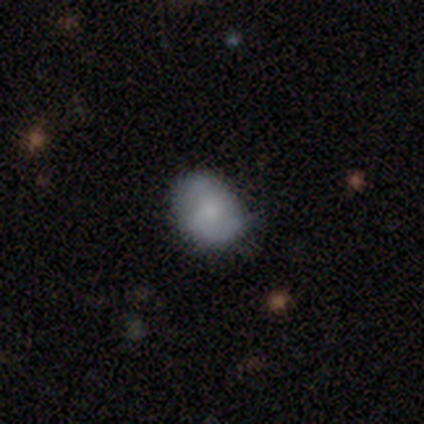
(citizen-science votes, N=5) Morphology: type=smooth (80%); roundness=in between (75%); merging=none (100%).